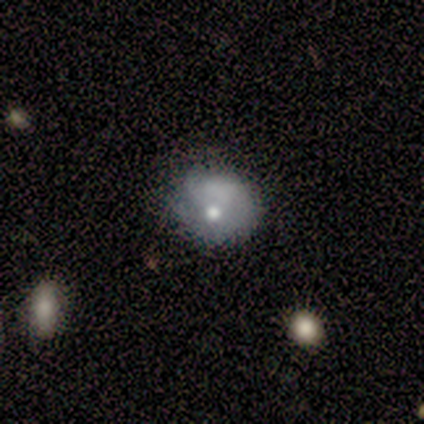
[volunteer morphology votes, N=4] smooth_or_featured: smooth (p=0.50) [tied with: featured or disk p=0.50]
how_rounded: round (p=0.50) [tied with: in between p=0.50]
merging: none (p=0.25) [tied with: minor disturbance p=0.25, major disturbance p=0.25, merger p=0.25]